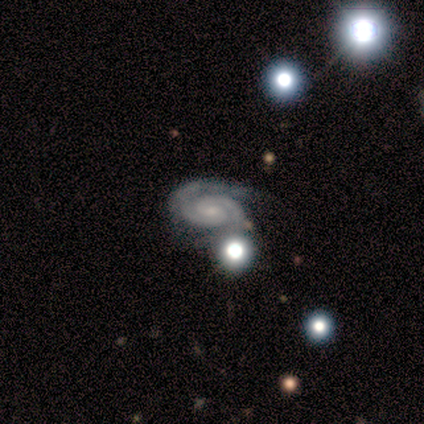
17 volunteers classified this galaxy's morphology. Overall: featured or disk (94%). Edge-on disk: no (88%). Bar: weak (57%; no 43%). Spiral arms: yes (100%). Spiral arm count: 2 (93%). Spiral winding: tight (71%). Bulge size: small (71%). Merging: none (76%).